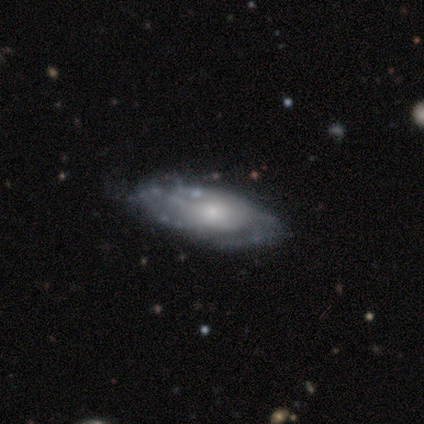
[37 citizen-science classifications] This is clearly a featured or disk galaxy (81%). It is clearly not viewed edge-on (93%). Bar: likely no (79%). Spiral arm pattern: likely yes (68%). Spiral arm count: likely can't tell (63%). Spiral winding: marginally tight (42%, tied with medium). Central bulge: possibly small (54%). Merging: possibly none (56%).